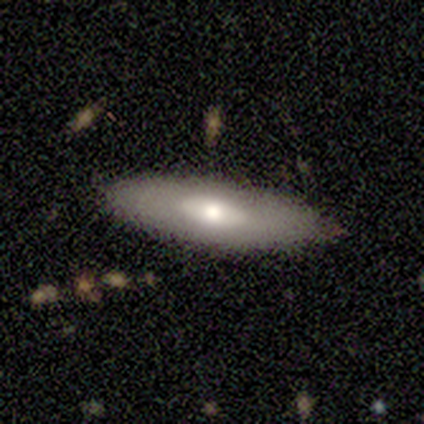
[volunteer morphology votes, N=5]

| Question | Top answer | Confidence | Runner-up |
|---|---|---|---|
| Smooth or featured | featured or disk | 60% | smooth (40%) |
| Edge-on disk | no | 100% | — |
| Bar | no | 67% | strong (33%) |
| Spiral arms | no | 100% | — |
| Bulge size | moderate | 100% | — |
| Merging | none | 100% | — |